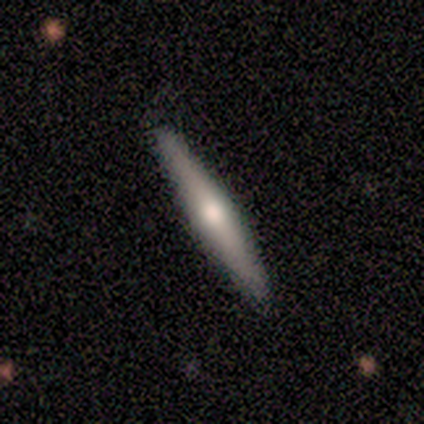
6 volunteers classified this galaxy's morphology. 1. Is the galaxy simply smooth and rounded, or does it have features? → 83% featured or disk, 17% smooth, 0% star or artifact.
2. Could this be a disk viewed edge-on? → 100% yes, 0% no.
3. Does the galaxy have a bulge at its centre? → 100% rounded, 0% boxy, 0% none.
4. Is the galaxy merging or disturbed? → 100% none, 0% minor disturbance, 0% major disturbance, 0% merger.